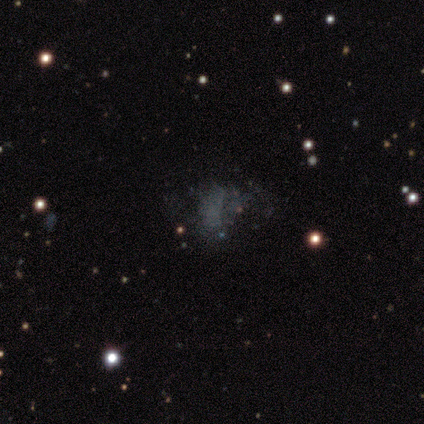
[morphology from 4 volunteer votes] type=featured or disk (50%); edge-on=no (100%); bar=no (100%); spiral arms=no (100%); bulge=none (100%); merging=none (67%).